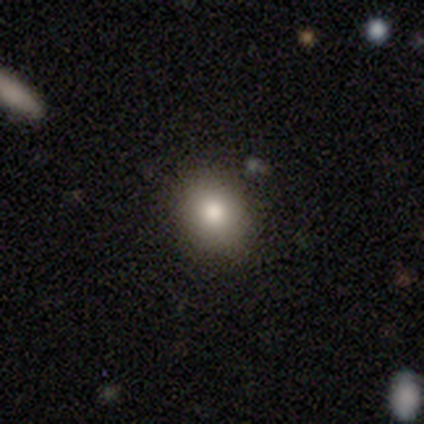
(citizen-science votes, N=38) Smooth or featured: smooth — 82% (star or artifact — 11%)
How rounded: round — 61% (in between — 39%)
Merging: none — 82% (minor disturbance — 15%)